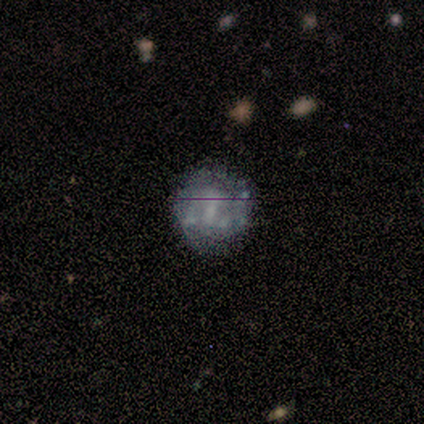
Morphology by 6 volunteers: Smooth or featured? featured or disk (83%)
Edge-on disk? no (100%)
Bar? no (60%)
Spiral arms? no (60%)
Bulge size? none (60%)
Merging? none (60%)